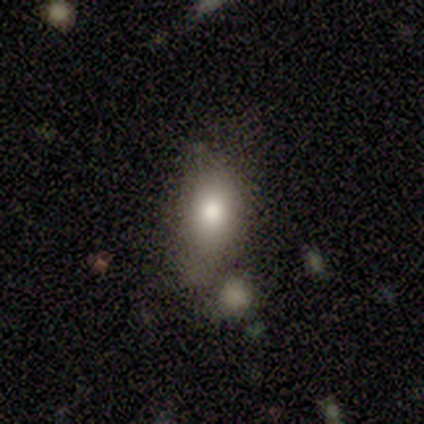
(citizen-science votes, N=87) smooth_or_featured: smooth (p=0.72) [alt: featured or disk p=0.17]
how_rounded: in between (p=0.86) [alt: round p=0.11]
merging: none (p=0.53) [alt: minor disturbance p=0.23]